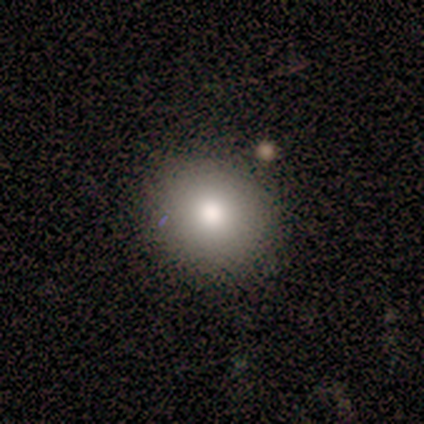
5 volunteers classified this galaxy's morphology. Q: Smooth or featured?
A: smooth (40%); tied with: featured or disk (40%)
Q: How rounded?
A: round (100%)
Q: Merging?
A: none (100%)